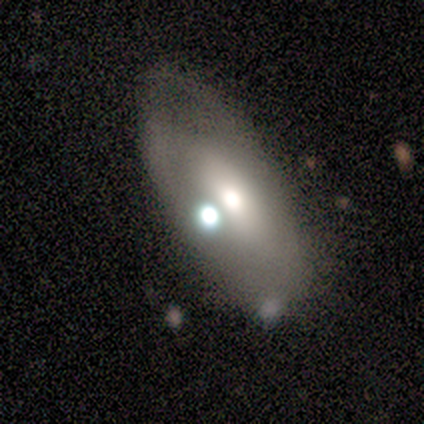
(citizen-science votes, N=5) A smooth galaxy with no disk features (80%) that is in between round and cigar-shaped (100%).

Vote fractions:
- Smooth or featured? smooth: 80% / featured or disk: 20% / star or artifact: 0%
- How rounded? in between: 100% / round: 0% / cigar-shaped: 0%
- Merging? none: 60% / minor disturbance: 40% / major disturbance: 0% / merger: 0%